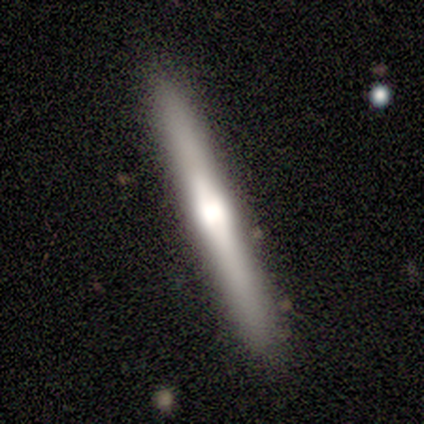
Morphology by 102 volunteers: Q: Smooth or featured?
A: featured or disk (66%); runner-up: smooth (28%)
Q: Edge-on disk?
A: yes (99%); runner-up: no (1%)
Q: Edge-on bulge?
A: rounded (74%); runner-up: boxy (20%)
Q: Merging?
A: none (95%); runner-up: minor disturbance (3%)